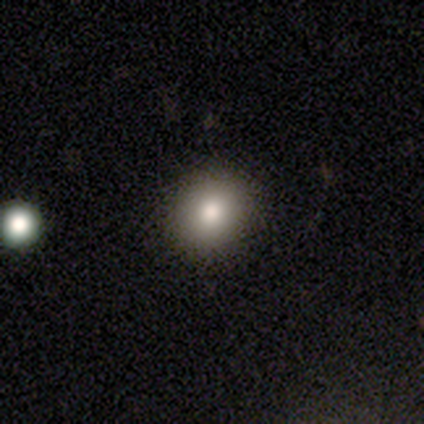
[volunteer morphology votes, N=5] smooth-or-featured: smooth: 80% | featured or disk: 20% | star or artifact: 0%
  how-rounded: round: 75% | in between: 25% | cigar-shaped: 0%
  merging: none: 100% | minor disturbance: 0% | major disturbance: 0% | merger: 0%